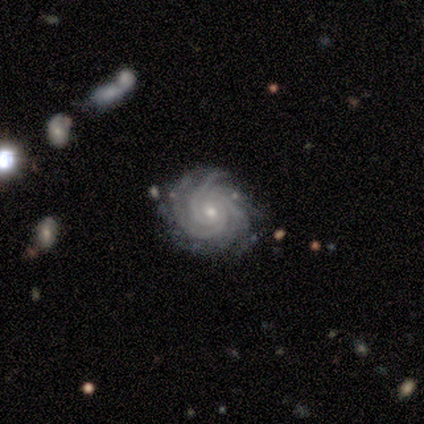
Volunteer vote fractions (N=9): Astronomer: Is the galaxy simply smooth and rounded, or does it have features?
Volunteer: featured or disk — 100%.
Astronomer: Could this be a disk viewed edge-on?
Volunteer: no — 100%.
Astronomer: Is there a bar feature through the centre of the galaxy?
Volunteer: no — 67%.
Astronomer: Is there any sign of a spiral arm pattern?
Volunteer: yes — 100%.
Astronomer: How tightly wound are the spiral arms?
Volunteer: tight — 100%.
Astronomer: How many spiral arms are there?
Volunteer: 3 — 67%.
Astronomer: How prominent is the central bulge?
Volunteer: small — 78%.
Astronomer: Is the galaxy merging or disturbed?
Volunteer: none — 78%.